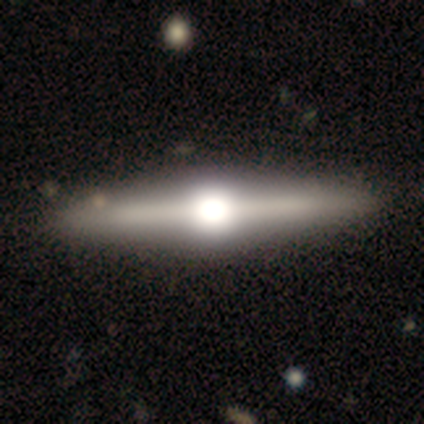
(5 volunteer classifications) smooth-or-featured: featured or disk: 100% | smooth: 0% | star or artifact: 0%
  disk-edge-on: yes: 100% | no: 0%
    edge-on-bulge: rounded: 80% | boxy: 20% | none: 0%
  merging: none: 100% | minor disturbance: 0% | major disturbance: 0% | merger: 0%